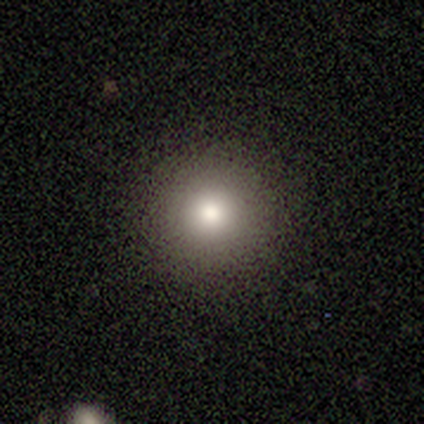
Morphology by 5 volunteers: Overall: smooth (100%). How rounded: round (100%). Merging: none (80%).